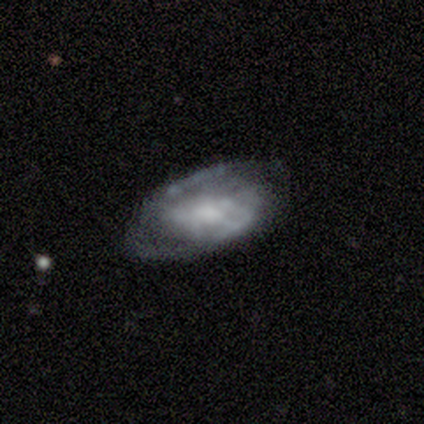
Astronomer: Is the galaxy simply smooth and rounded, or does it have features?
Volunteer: smooth — 50%, tied with featured or disk at 50%.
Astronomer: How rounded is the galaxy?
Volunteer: in between — 100%.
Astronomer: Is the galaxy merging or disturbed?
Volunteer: minor disturbance — 75%.